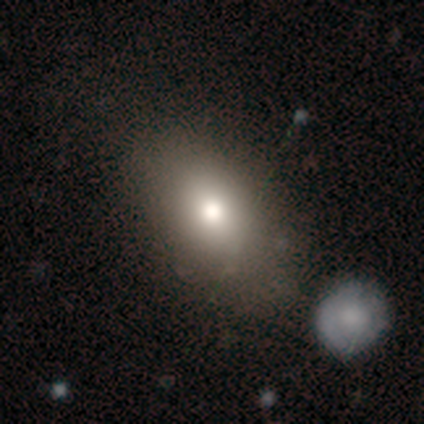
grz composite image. It shows a smooth galaxy with no disk features (80%) that is in between round and cigar-shaped (100%). Merging: none (75%).